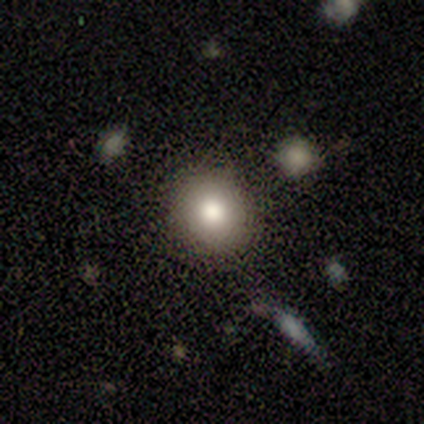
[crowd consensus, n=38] Smooth or featured? 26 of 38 (68%) said smooth. How rounded? 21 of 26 (81%) said round. Merging? 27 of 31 (87%) said none.